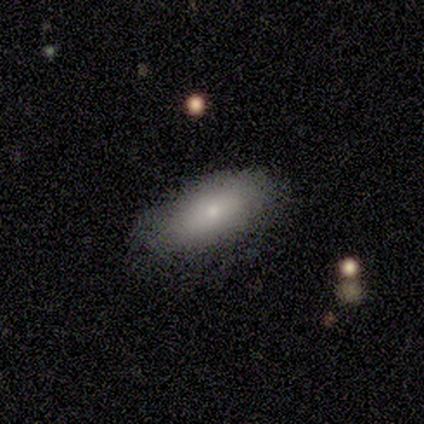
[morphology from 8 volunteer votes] This is clearly a smooth galaxy (88%). How rounded: clearly in between (100%). Merging: clearly none (88%).